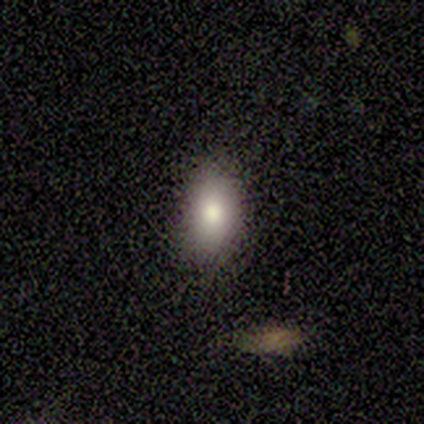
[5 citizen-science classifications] Smooth or featured?
  - smooth: 40% * (tied)
  - featured or disk: 40% * (tied)
  - star or artifact: 20%
How rounded?
  - in between: 100% *
  - round: 0%
  - cigar-shaped: 0%
Merging?
  - none: 100% *
  - minor disturbance: 0%
  - major disturbance: 0%
  - merger: 0%